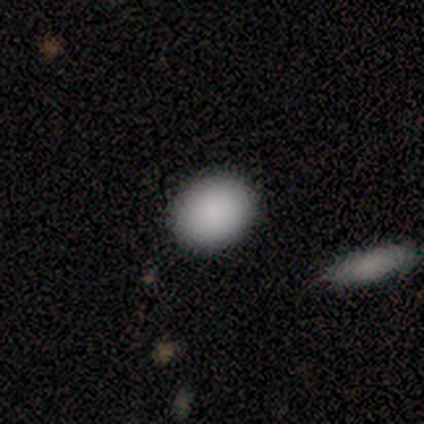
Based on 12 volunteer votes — Volunteers were most divided on "how rounded": in between: 58%, round: 42%, cigar-shaped: 0%. More confident: smooth or featured — smooth (100%); merging — none (83%).